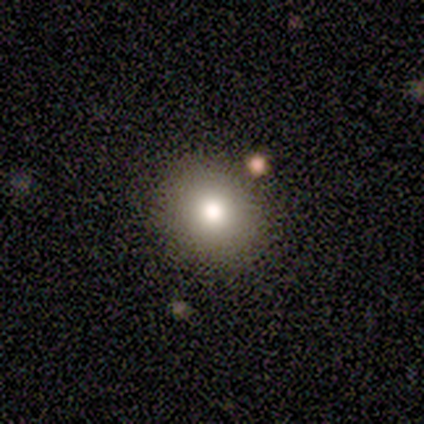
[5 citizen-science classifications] smooth_or_featured: smooth (p=1.00)
how_rounded: round (p=0.80) [alt: in between p=0.20]
merging: none (p=1.00)